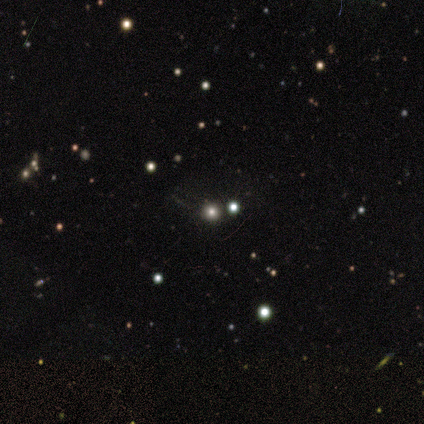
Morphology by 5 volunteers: Smooth or featured?
  - smooth: 80% *
  - star or artifact: 20%
  - featured or disk: 0%
How rounded?
  - round: 100% *
  - in between: 0%
  - cigar-shaped: 0%
Merging?
  - none: 50% * (tied)
  - merger: 50% * (tied)
  - minor disturbance: 0%
  - major disturbance: 0%